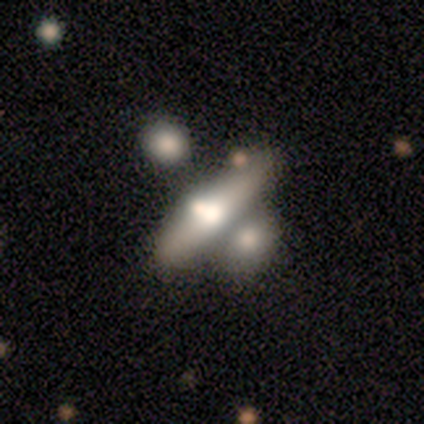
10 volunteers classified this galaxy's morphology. Overall: featured or disk (50%; smooth 40%). Edge-on disk: yes (80%). Edge-on bulge: rounded (100%). Merging: none (78%).